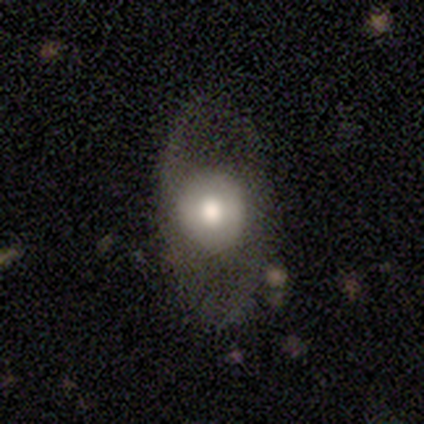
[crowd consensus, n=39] smooth_or_featured: featured or disk (p=0.49) [alt: smooth p=0.44]
disk_edge_on: no (p=0.89) [alt: yes p=0.11]
bar: no (p=0.65) [alt: weak p=0.35]
has_spiral_arms: yes (p=0.53) [alt: no p=0.47]
spiral_winding: loose (p=0.56) [alt: medium p=0.44]
spiral_arm_count: 2 (p=0.67) [alt: can't tell p=0.22]
bulge_size: large (p=0.41) [tied with: moderate p=0.41]
merging: none (p=0.72) [alt: major disturbance p=0.19]